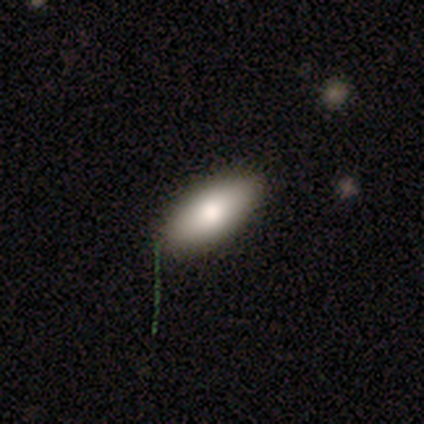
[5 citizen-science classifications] Overall: smooth (80%). How rounded: in between (75%). Merging: none (80%).